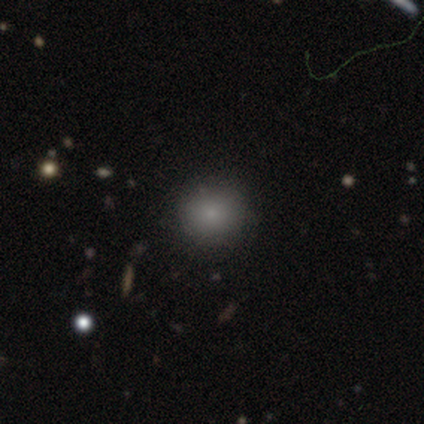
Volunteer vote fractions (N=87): A smooth galaxy with no disk features (79%) that is round (86%).

Vote fractions:
- Smooth or featured? smooth: 79% / star or artifact: 14% / featured or disk: 7%
- How rounded? round: 86% / in between: 14% / cigar-shaped: 0%
- Merging? none: 80% / minor disturbance: 13% / major disturbance: 4% / merger: 3%